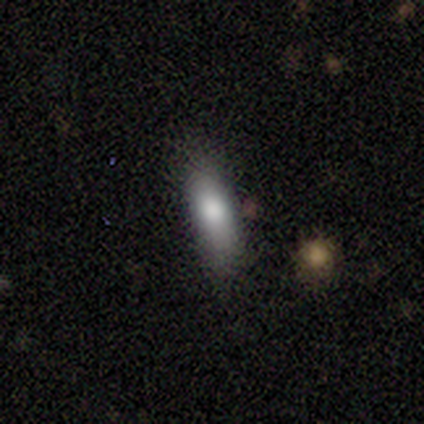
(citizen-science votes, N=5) smooth-or-featured: smooth: 80% | star or artifact: 20% | featured or disk: 0%
  how-rounded: in between: 50% (tied) | cigar-shaped: 50% (tied) | round: 0%
  merging: none: 75% | minor disturbance: 25% | major disturbance: 0% | merger: 0%